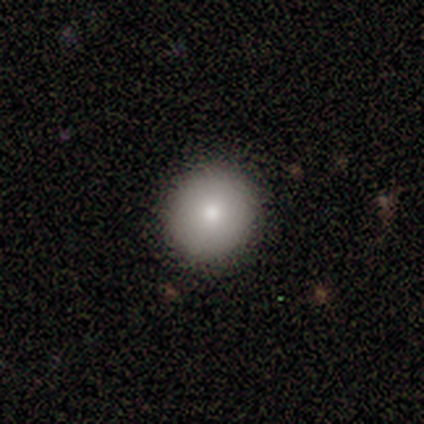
A smooth galaxy with no disk features (83%) that is round (80%).

Vote fractions:
- Smooth or featured? smooth: 83% / featured or disk: 17% / star or artifact: 0%
- How rounded? round: 80% / in between: 20% / cigar-shaped: 0%
- Merging? none: 100% / minor disturbance: 0% / major disturbance: 0% / merger: 0%